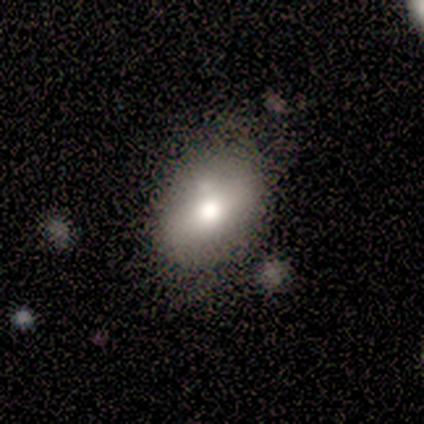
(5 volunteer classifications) Smooth or featured? smooth (80%)
How rounded? in between (75%)
Merging? none (80%)